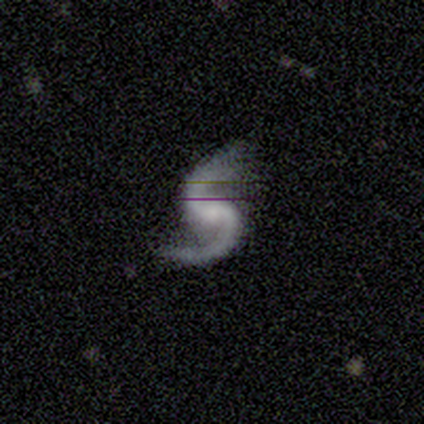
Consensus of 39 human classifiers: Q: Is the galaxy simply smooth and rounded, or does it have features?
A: featured or disk — 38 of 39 (97%).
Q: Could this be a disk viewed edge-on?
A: no — 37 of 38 (97%).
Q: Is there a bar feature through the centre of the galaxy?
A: weak — 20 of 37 (54%).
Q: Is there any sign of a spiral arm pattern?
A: yes — 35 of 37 (95%).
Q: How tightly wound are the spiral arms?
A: loose — 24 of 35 (69%).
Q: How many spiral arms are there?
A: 2 — 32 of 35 (91%).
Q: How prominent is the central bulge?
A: small — 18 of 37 (49%).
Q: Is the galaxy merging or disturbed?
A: none — 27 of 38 (71%).